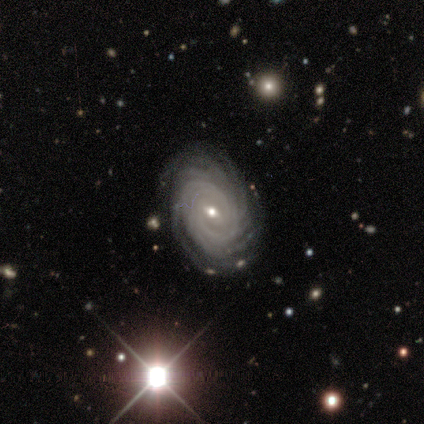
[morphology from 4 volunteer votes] Smooth or featured? featured or disk (100%)
Edge-on disk? no (100%)
Bar? weak (75%)
Spiral arms? yes (100%)
Spiral winding? tight (100%)
Spiral arm count? more than 4 (75%)
Bulge size? small (75%)
Merging? none (100%)